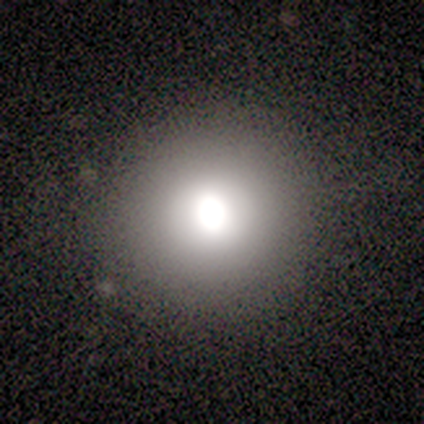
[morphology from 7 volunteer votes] Smooth or featured?
  - smooth: 71% *
  - star or artifact: 29%
  - featured or disk: 0%
How rounded?
  - round: 100% *
  - in between: 0%
  - cigar-shaped: 0%
Merging?
  - none: 100% *
  - minor disturbance: 0%
  - major disturbance: 0%
  - merger: 0%